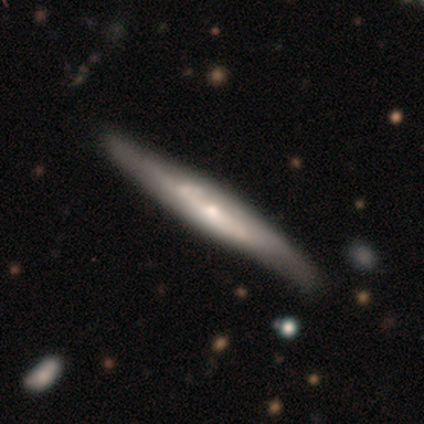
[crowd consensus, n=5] smooth-or-featured: featured or disk: 80% | smooth: 20% | star or artifact: 0%
  disk-edge-on: yes: 100% | no: 0%
    edge-on-bulge: none: 75% | rounded: 25% | boxy: 0%
  merging: none: 100% | minor disturbance: 0% | major disturbance: 0% | merger: 0%